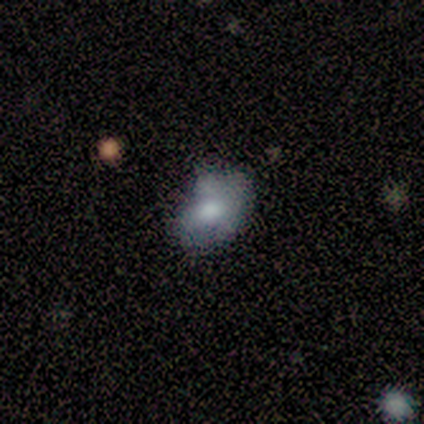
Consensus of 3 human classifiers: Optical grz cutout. It shows a smooth galaxy with no disk features (67%) that is round (50%, tied with in between). Merging: none (67%).